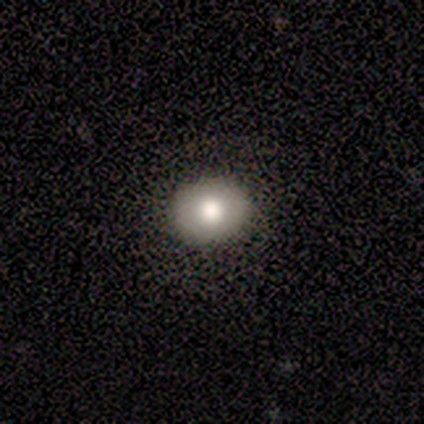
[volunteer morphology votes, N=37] Smooth or featured: smooth — 62% (star or artifact — 30%)
How rounded: round — 65% (in between — 35%)
Merging: none — 92% (minor disturbance — 8%)